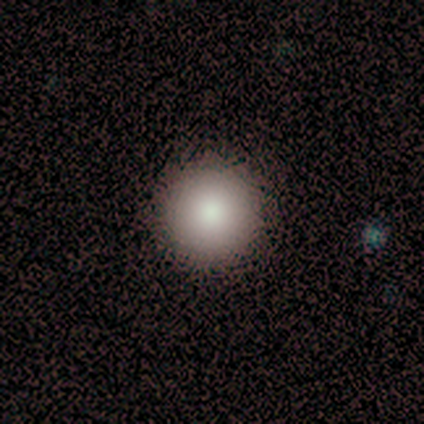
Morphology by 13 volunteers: smooth 77%, featured or disk 23%, star or artifact 0%. Down the decision tree: how rounded — round (100%); merging — none (92%).